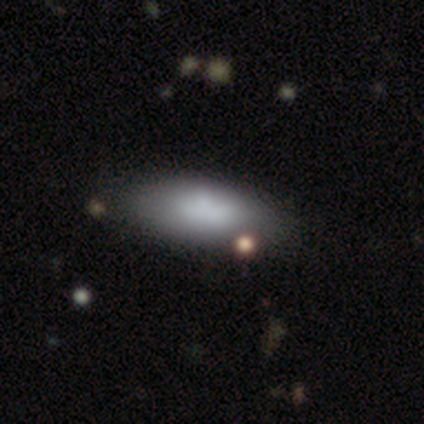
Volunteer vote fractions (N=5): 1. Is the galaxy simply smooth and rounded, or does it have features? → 80% smooth, 20% featured or disk, 0% star or artifact.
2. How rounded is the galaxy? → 100% in between, 0% round, 0% cigar-shaped.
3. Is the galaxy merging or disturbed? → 100% none, 0% minor disturbance, 0% major disturbance, 0% merger.